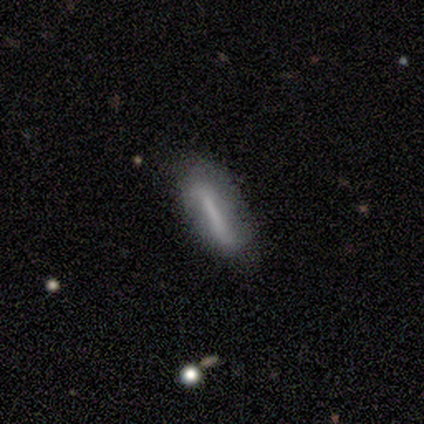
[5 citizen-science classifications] Q: Smooth or featured?
A: smooth (80%); runner-up: star or artifact (20%)
Q: How rounded?
A: cigar-shaped (75%); runner-up: in between (25%)
Q: Merging?
A: none (75%); runner-up: minor disturbance (25%)